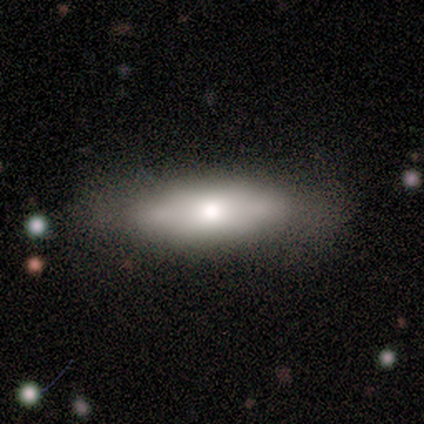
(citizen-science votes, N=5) Smooth or featured?
  - featured or disk: 60% *
  - smooth: 40%
  - star or artifact: 0%
Edge-on disk?
  - yes: 100% *
  - no: 0%
Edge-on bulge?
  - rounded: 67% *
  - boxy: 33%
  - none: 0%
Merging?
  - none: 40% * (tied)
  - minor disturbance: 40% * (tied)
  - major disturbance: 20%
  - merger: 0%